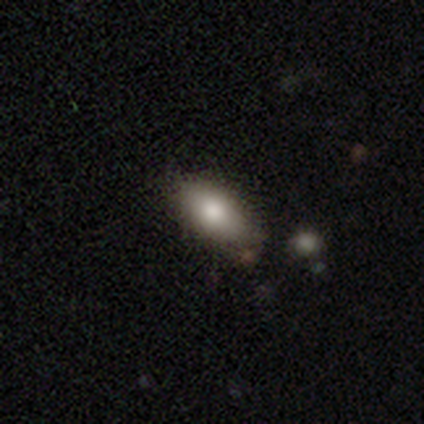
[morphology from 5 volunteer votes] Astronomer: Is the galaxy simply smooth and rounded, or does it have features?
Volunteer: smooth — 80%.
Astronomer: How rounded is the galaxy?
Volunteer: in between — 75%.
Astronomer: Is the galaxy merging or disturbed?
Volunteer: none — 75%.